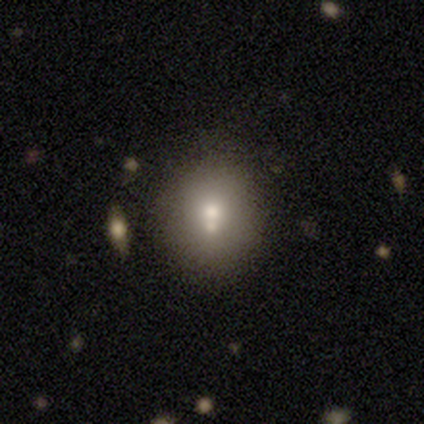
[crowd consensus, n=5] Morphology: type=smooth (100%); roundness=round (80%); merging=none (40%, tied with merger).